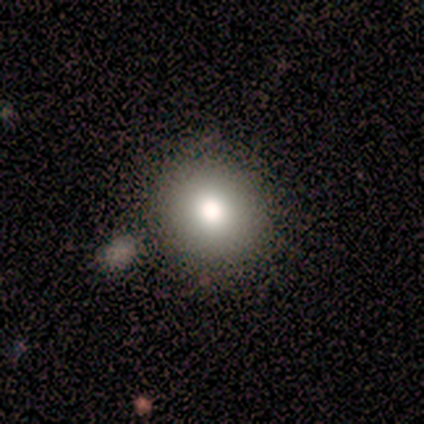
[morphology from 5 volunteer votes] Q: Smooth or featured?
A: smooth (100%)
Q: How rounded?
A: round (80%); runner-up: in between (20%)
Q: Merging?
A: none (60%); runner-up: minor disturbance (40%)